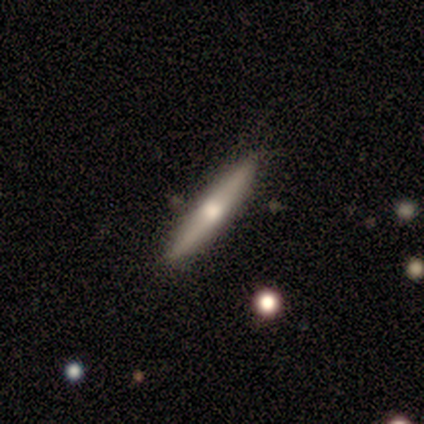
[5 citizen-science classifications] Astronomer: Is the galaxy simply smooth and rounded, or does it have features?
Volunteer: featured or disk — 80%.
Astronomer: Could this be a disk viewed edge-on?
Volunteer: yes — 100%.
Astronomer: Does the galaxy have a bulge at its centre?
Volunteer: rounded — 75%.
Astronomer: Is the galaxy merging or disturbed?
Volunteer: none — 80%.